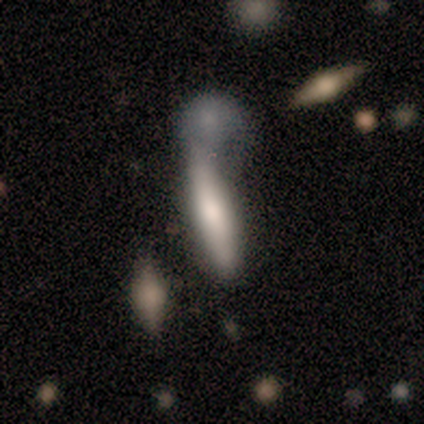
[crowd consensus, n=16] Smooth or featured?
  - smooth: 50% * (tied)
  - featured or disk: 50% * (tied)
  - star or artifact: 0%
How rounded?
  - cigar-shaped: 88% *
  - in between: 12%
  - round: 0%
Merging?
  - merger: 56% *
  - none: 25%
  - major disturbance: 12%
  - minor disturbance: 6%